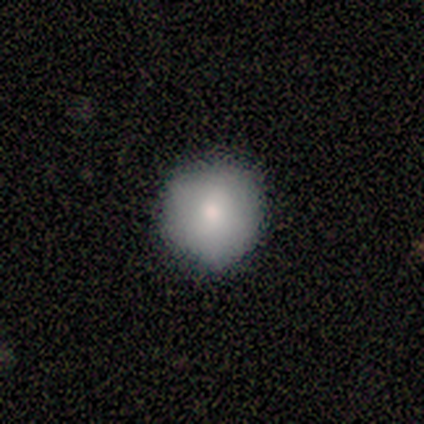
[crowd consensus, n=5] smooth_or_featured: smooth (p=0.60) [alt: star or artifact p=0.40]
how_rounded: round (p=1.00)
merging: none (p=1.00)